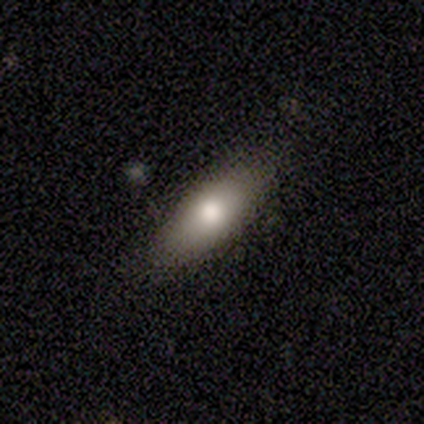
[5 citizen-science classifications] smooth_or_featured: smooth (p=1.00)
how_rounded: cigar-shaped (p=0.60) [alt: in between p=0.40]
merging: none (p=0.80) [alt: minor disturbance p=0.20]